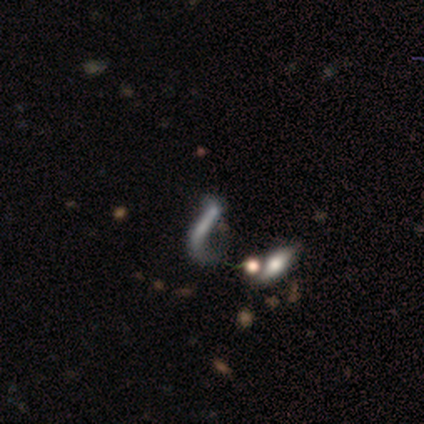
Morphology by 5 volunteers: Smooth or featured? featured or disk (60%)
Edge-on disk? yes (67%)
Edge-on bulge? boxy (50%, tied with none)
Merging? major disturbance (67%)